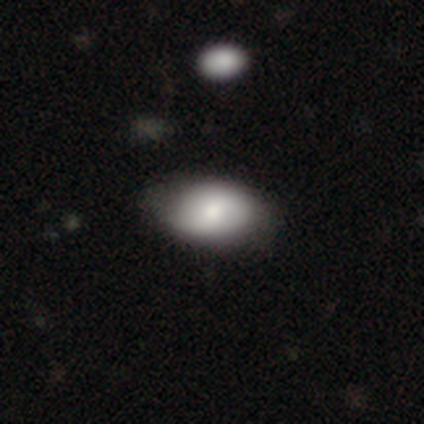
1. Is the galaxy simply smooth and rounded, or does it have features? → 75% smooth, 25% featured or disk, 0% star or artifact.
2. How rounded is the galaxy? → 100% in between, 0% round, 0% cigar-shaped.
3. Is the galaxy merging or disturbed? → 75% none, 25% minor disturbance, 0% major disturbance, 0% merger.